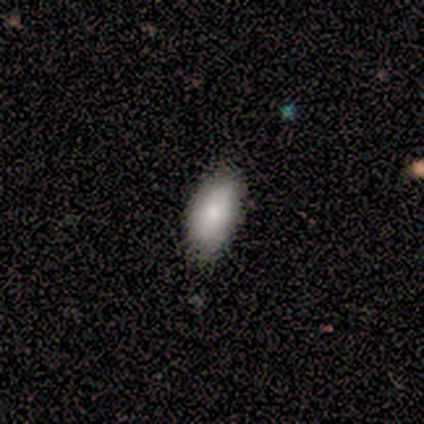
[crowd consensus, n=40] smooth_or_featured: smooth (p=0.88) [alt: featured or disk p=0.07]
how_rounded: in between (p=0.91) [alt: cigar-shaped p=0.09]
merging: none (p=0.76) [alt: minor disturbance p=0.24]